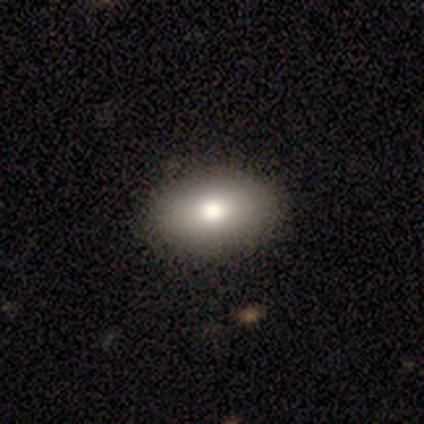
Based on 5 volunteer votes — A smooth galaxy with no disk features (60%) that is in between round and cigar-shaped (67%). Merging: none (100%).